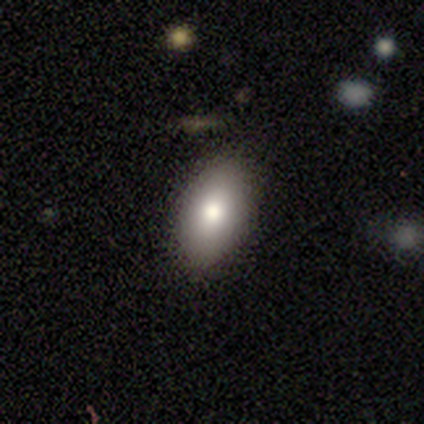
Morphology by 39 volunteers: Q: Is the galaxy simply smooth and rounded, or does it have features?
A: smooth — 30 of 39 (77%).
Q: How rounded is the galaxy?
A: in between — 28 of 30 (93%).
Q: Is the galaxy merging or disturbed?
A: none — 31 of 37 (84%).